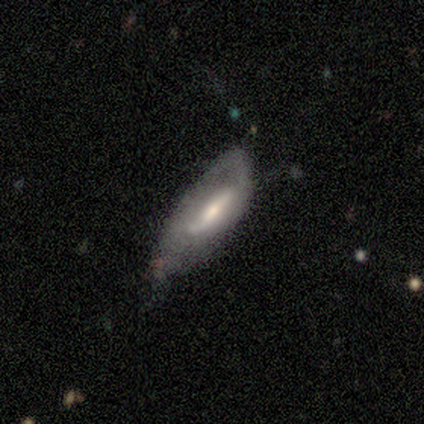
A smooth galaxy with no disk features (60%) that is in between round and cigar-shaped (100%).

Vote fractions:
- Smooth or featured? smooth: 60% / featured or disk: 40% / star or artifact: 0%
- How rounded? in between: 100% / round: 0% / cigar-shaped: 0%
- Merging? minor disturbance: 60% / none: 20% / major disturbance: 20% / merger: 0%